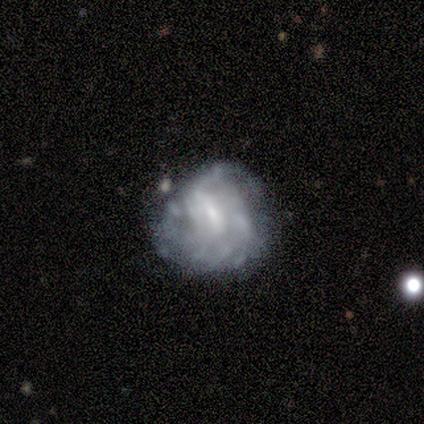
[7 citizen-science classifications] This is likely a featured or disk galaxy (71%). It is clearly not viewed edge-on (100%). Bar: marginally weak (40%, tied with no). Spiral arm pattern: likely no (60%). Central bulge: likely small (60%). Merging: possibly none (57%).